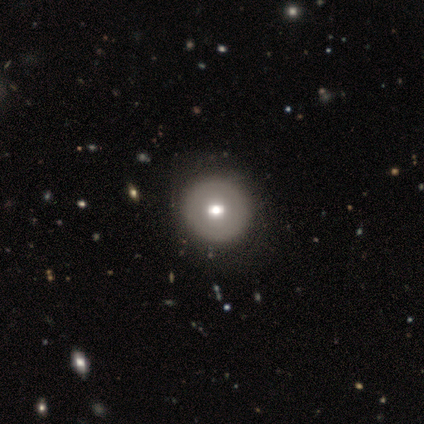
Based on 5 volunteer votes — This is marginally a smooth galaxy (40%, tied with featured or disk). How rounded: clearly round (100%). Merging: clearly none (100%).